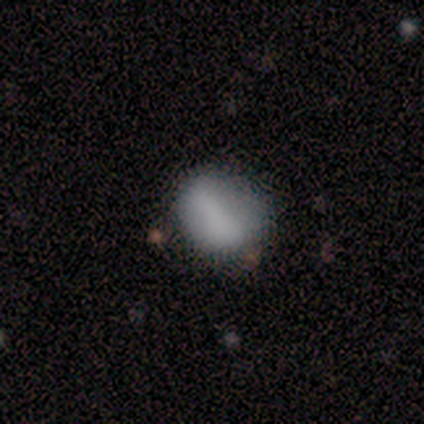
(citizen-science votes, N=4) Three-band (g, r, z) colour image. It shows a smooth galaxy with no disk features (75%) that is in between round and cigar-shaped (67%). Merging: none (50%, tied with minor disturbance).